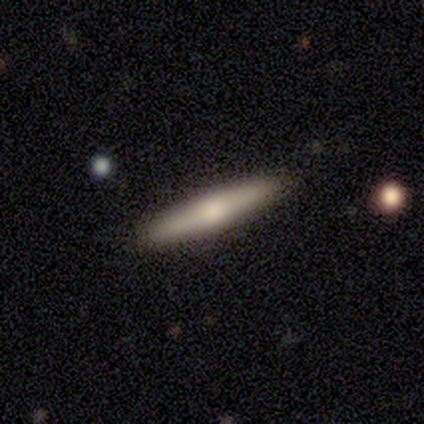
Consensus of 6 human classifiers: Q: Smooth or featured?
A: smooth (50%); tied with: featured or disk (50%)
Q: How rounded?
A: cigar-shaped (100%)
Q: Merging?
A: none (83%); runner-up: minor disturbance (17%)